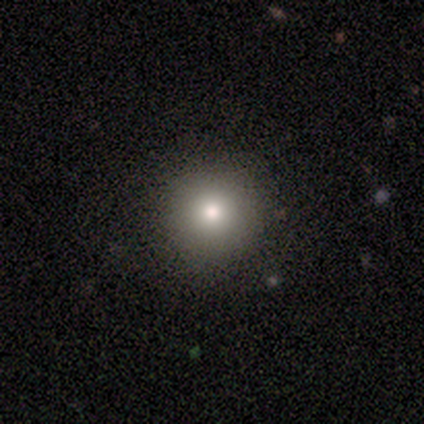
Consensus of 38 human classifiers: This appears to be a smooth galaxy with no disk features (87%) that is round (97%). Merging: none (57%).